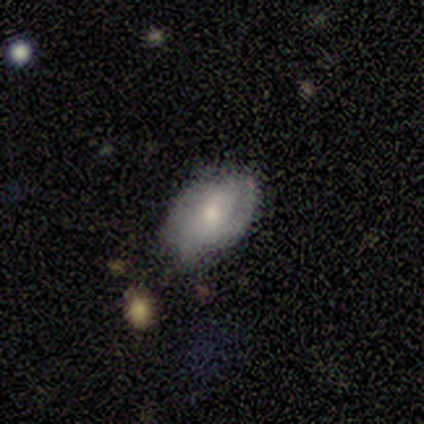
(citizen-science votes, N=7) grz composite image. It shows a smooth galaxy with no disk features (86%) that is in between round and cigar-shaped (100%). Merging: none (67%).